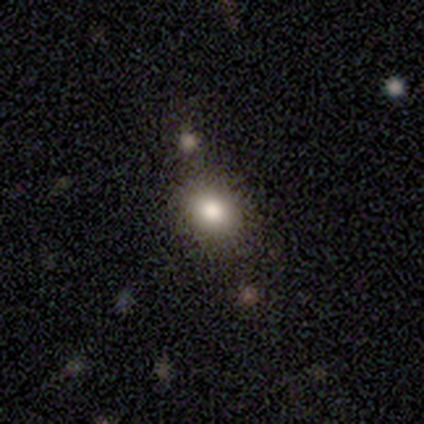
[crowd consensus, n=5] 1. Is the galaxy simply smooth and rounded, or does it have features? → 80% smooth, 20% star or artifact, 0% featured or disk.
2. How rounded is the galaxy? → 100% in between, 0% round, 0% cigar-shaped.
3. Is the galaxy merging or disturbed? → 100% none, 0% minor disturbance, 0% major disturbance, 0% merger.